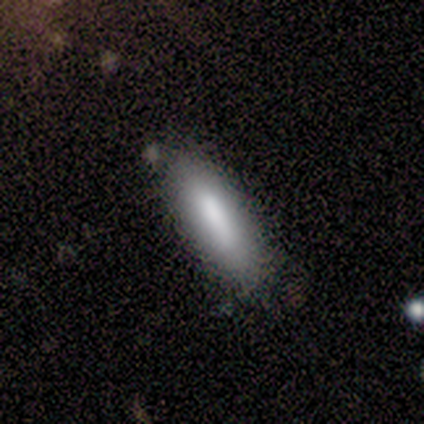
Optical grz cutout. It shows a smooth galaxy with no disk features (80%) that is in between round and cigar-shaped (50%, tied with cigar-shaped). Merging: none (60%).